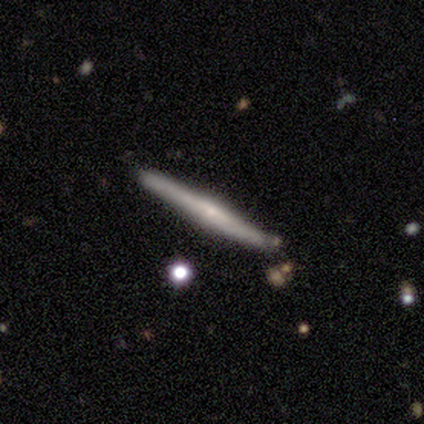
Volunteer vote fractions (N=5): Morphology: type=featured or disk (60%); edge-on=yes (100%); edge-on bulge=none (67%); merging=none (100%).